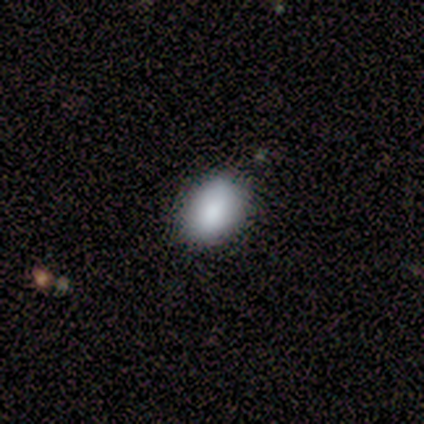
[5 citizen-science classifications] Smooth or featured: smooth — 60% (featured or disk — 20%)
How rounded: in between — 67% (round — 33%)
Merging: none — 100%